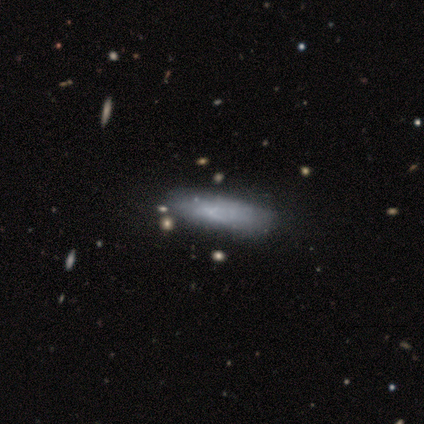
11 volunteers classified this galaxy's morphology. Smooth or featured: smooth — 64% (featured or disk — 27%)
How rounded: in between — 71% (cigar-shaped — 29%)
Merging: none — 80% (minor disturbance — 10%)